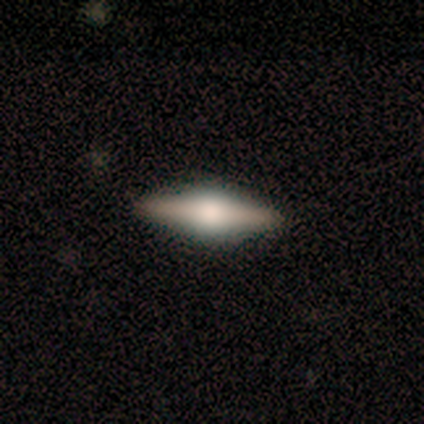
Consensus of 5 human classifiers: Smooth or featured? 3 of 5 (60%) said featured or disk. Edge-on disk? 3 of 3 (100%) said yes. Edge-on bulge? 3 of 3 (100%) said rounded. Merging? 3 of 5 (60%) said none.